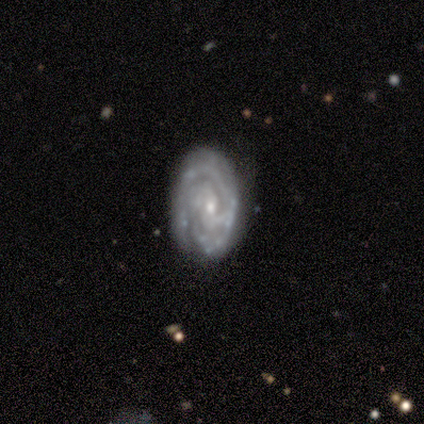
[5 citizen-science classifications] Smooth or featured? featured or disk (100%)
Edge-on disk? no (100%)
Bar? weak (60%)
Spiral arms? yes (100%)
Spiral winding? tight (60%)
Spiral arm count? 3 (60%)
Bulge size? moderate (40%, tied with small)
Merging? none (60%)